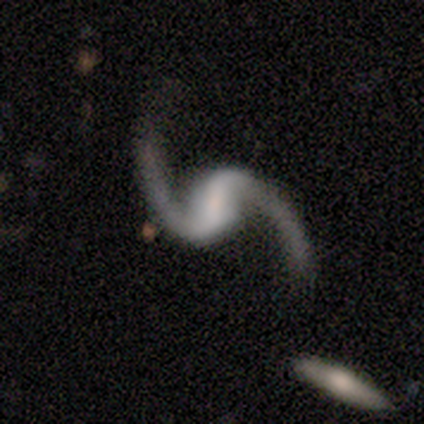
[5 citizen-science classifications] Volunteers were most divided on "bar": weak: 60%, strong: 20%, no: 20%. More confident: smooth or featured — featured or disk (100%); edge-on disk — no (100%); spiral arms — yes (100%); spiral winding — loose (100%); spiral arm count — 2 (80%); merging — none (80%); bulge size — small (60%).